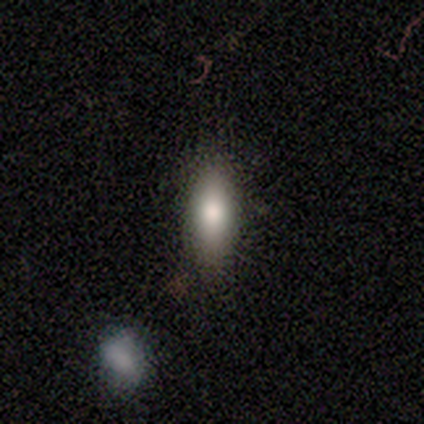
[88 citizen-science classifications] Smooth or featured?
  - smooth: 80% *
  - featured or disk: 11%
  - star or artifact: 9%
How rounded?
  - in between: 53% *
  - cigar-shaped: 44%
  - round: 3%
Merging?
  - none: 82% *
  - minor disturbance: 16%
  - major disturbance: 1%
  - merger: 0%